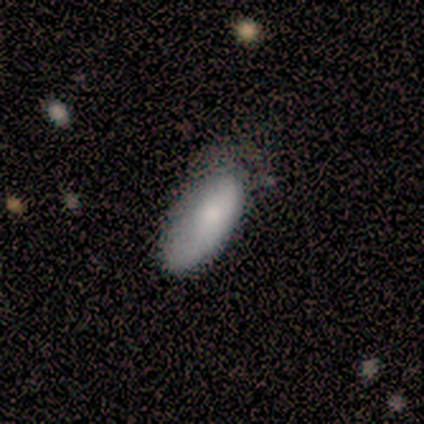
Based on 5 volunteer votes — Smooth or featured? smooth (100%)
How rounded? in between (100%)
Merging? none (60%)